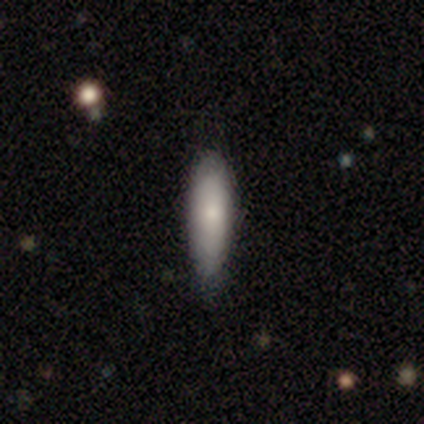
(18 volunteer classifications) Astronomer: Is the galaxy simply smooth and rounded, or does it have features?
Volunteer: smooth — 94%.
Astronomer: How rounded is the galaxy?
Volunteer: cigar-shaped — 76%.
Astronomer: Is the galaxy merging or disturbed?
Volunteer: none — 67%.